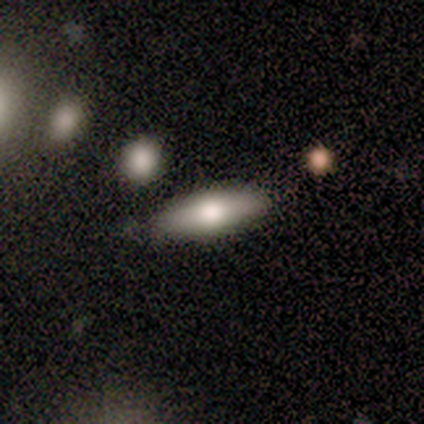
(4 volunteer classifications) A smooth galaxy with no disk features (100%) that is in between round and cigar-shaped (50%, tied with cigar-shaped).

Vote fractions:
- Smooth or featured? smooth: 100% / featured or disk: 0% / star or artifact: 0%
- How rounded? in between: 50% (tied) / cigar-shaped: 50% (tied) / round: 0%
- Merging? none: 100% / minor disturbance: 0% / major disturbance: 0% / merger: 0%